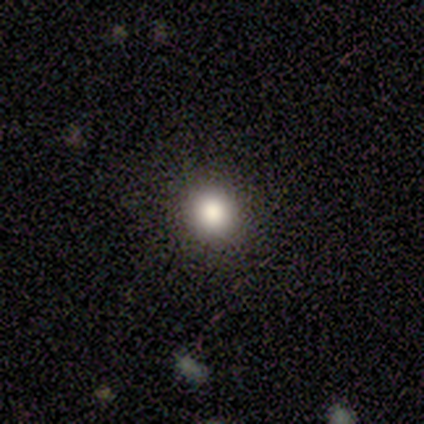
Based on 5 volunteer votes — Volunteers were most divided on "how rounded": round: 80%, in between: 20%, cigar-shaped: 0%. More confident: smooth or featured — smooth (100%); merging — none (100%).